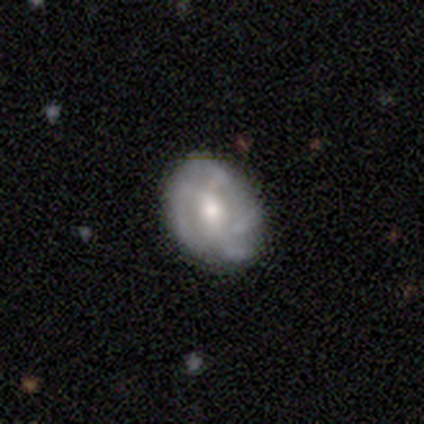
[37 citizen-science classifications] smooth_or_featured: featured or disk (p=0.62) [alt: smooth p=0.38]
disk_edge_on: no (p=0.91) [alt: yes p=0.09]
bar: no (p=0.52) [alt: weak p=0.43]
has_spiral_arms: yes (p=0.76) [alt: no p=0.24]
spiral_winding: medium (p=0.38) [tied with: loose p=0.38]
spiral_arm_count: can't tell (p=0.50) [alt: 4 p=0.38]
bulge_size: moderate (p=0.71) [alt: small p=0.19]
merging: none (p=0.70) [alt: minor disturbance p=0.22]